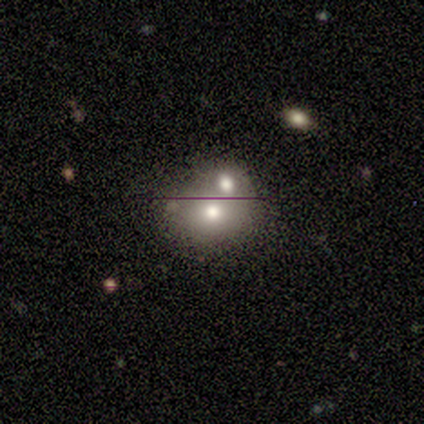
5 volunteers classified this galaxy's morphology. Overall: smooth (80%). How rounded: round (50%, tied with in between). Merging: none (60%; merger 40%).